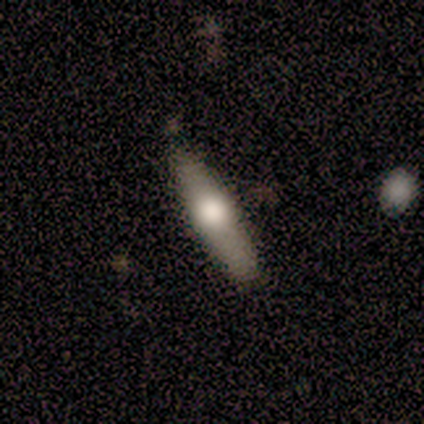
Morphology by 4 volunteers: A smooth galaxy with no disk features (75%) that is cigar-shaped (67%). Merging: none (75%).